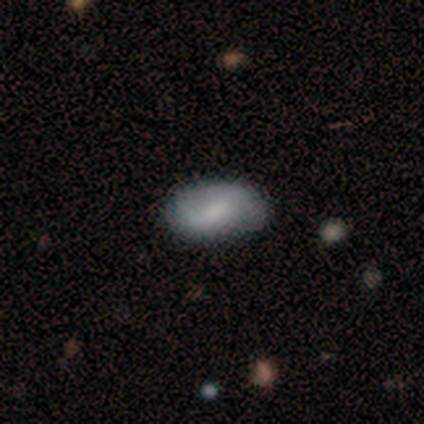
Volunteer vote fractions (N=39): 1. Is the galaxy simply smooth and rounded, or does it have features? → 74% smooth, 18% featured or disk, 8% star or artifact.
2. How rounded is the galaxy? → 100% in between, 0% round, 0% cigar-shaped.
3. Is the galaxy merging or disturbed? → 67% none, 25% minor disturbance, 8% major disturbance, 0% merger.